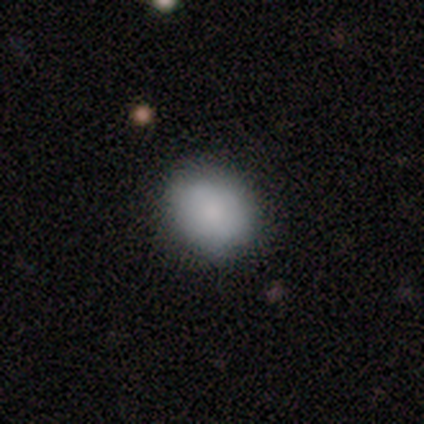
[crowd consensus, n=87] smooth 84%, featured or disk 8%, star or artifact 8%. Down the decision tree: how rounded — round (55%); merging — none (86%).